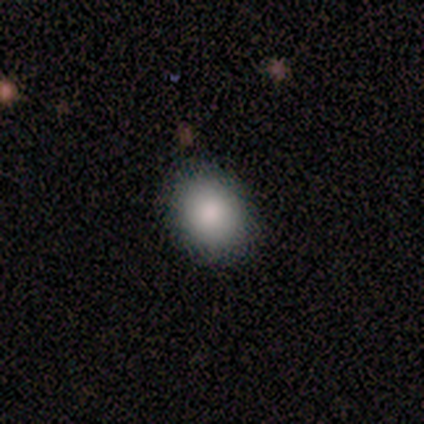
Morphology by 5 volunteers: smooth-or-featured: smooth: 100% | featured or disk: 0% | star or artifact: 0%
  how-rounded: round: 60% | in between: 40% | cigar-shaped: 0%
  merging: none: 100% | minor disturbance: 0% | major disturbance: 0% | merger: 0%